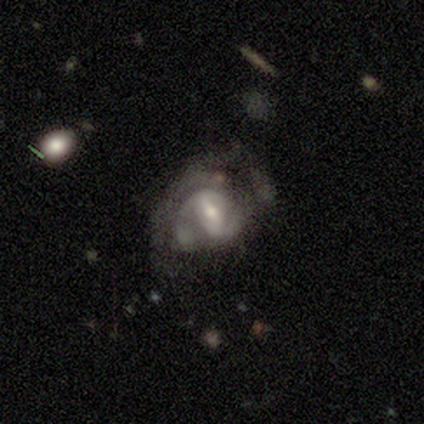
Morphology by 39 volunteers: Smooth or featured?
  - featured or disk: 72% *
  - star or artifact: 15%
  - smooth: 13%
Edge-on disk?
  - no: 100% *
  - yes: 0%
Bar?
  - weak: 64% *
  - strong: 32%
  - no: 4%
Spiral arms?
  - yes: 96% *
  - no: 4%
Spiral winding?
  - medium: 44% *
  - tight: 37%
  - loose: 19%
Spiral arm count?
  - 2: 67% *
  - can't tell: 19%
  - 3: 15%
  - 1: 0%
  - 4: 0%
  - more than 4: 0%
Bulge size?
  - moderate: 57% *
  - small: 43%
  - dominant: 0%
  - large: 0%
  - none: 0%
Merging?
  - none: 48% *
  - minor disturbance: 27%
  - major disturbance: 21%
  - merger: 3%